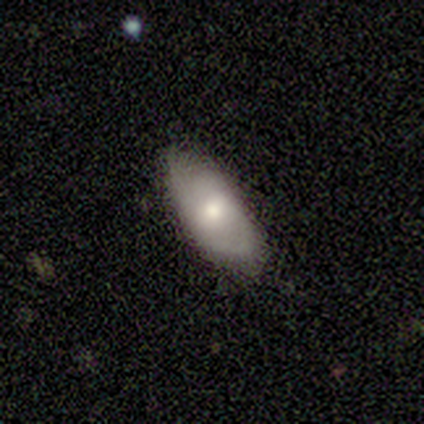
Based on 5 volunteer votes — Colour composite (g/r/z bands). It shows a smooth galaxy with no disk features (100%) that is in between round and cigar-shaped (100%). Merging: none (60%).